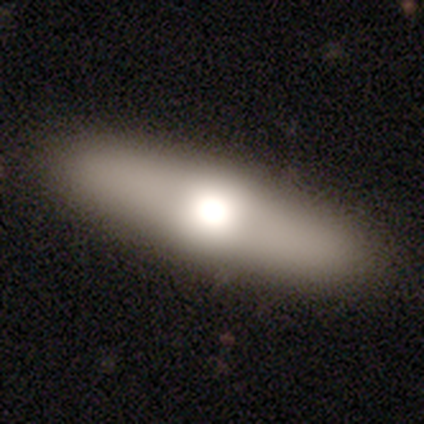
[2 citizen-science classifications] Volunteers were most divided on "how rounded" (2-way tie): in between: 50%, cigar-shaped: 50%, round: 0%. More confident: smooth or featured — smooth (100%); merging — none (100%).